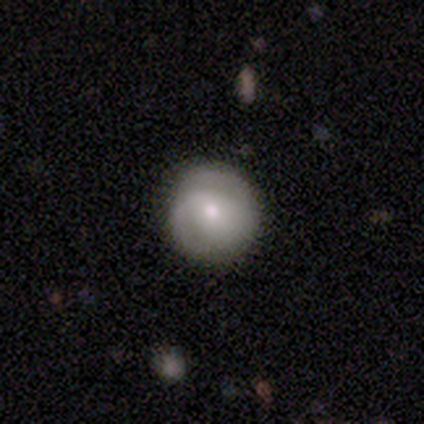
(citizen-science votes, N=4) Q: Smooth or featured?
A: featured or disk (75%); runner-up: star or artifact (25%)
Q: Edge-on disk?
A: no (100%)
Q: Bar?
A: no (100%)
Q: Spiral arms?
A: yes (100%)
Q: Spiral winding?
A: tight (67%); runner-up: medium (33%)
Q: Spiral arm count?
A: 2 (100%)
Q: Bulge size?
A: moderate (67%); runner-up: small (33%)
Q: Merging?
A: none (100%)